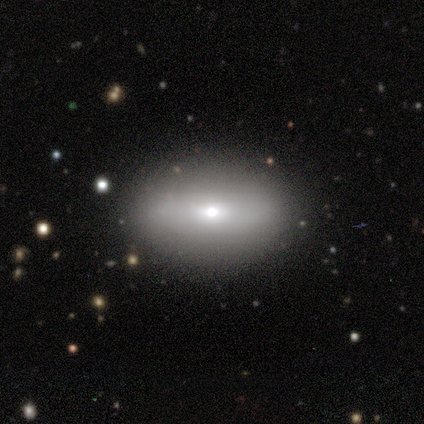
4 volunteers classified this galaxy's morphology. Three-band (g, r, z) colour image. It shows a smooth galaxy with no disk features (50%, tied with featured or disk) that is in between round and cigar-shaped (100%). Merging: none (75%).